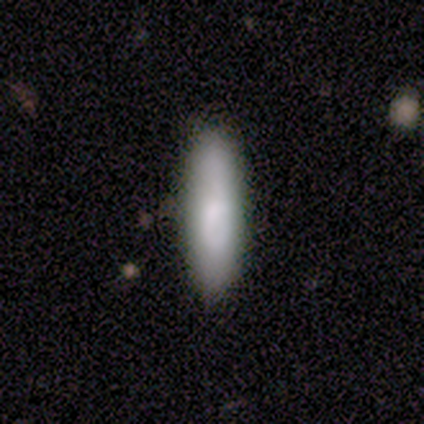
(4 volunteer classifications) smooth_or_featured: smooth (p=1.00)
how_rounded: cigar-shaped (p=1.00)
merging: none (p=0.75) [alt: minor disturbance p=0.25]